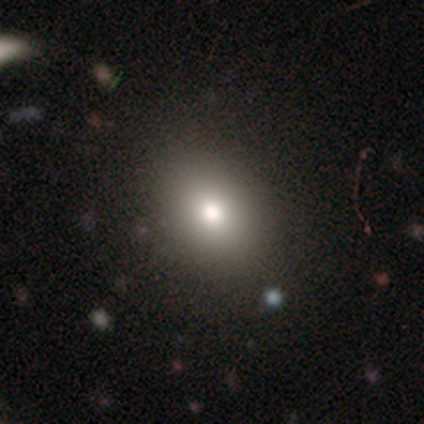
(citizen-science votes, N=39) This appears to be a smooth galaxy with no disk features (79%) that is in between round and cigar-shaped (65%). Merging: none (83%).